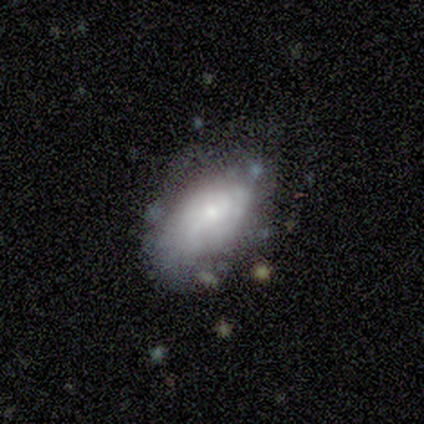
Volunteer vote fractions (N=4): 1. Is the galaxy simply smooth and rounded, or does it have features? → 50% smooth (tied), 50% featured or disk (tied), 0% star or artifact.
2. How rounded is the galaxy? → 100% in between, 0% round, 0% cigar-shaped.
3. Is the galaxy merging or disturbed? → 50% minor disturbance, 25% none, 25% major disturbance, 0% merger.